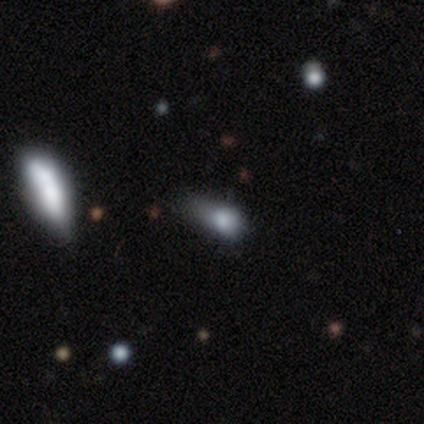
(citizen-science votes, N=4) Smooth or featured? smooth (50%, tied with star or artifact)
How rounded? in between (100%)
Merging? minor disturbance (50%, tied with major disturbance)